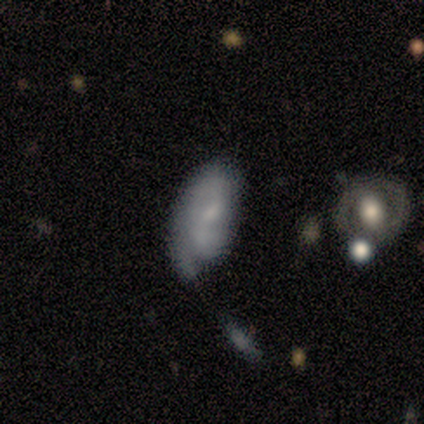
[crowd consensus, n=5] Overall: smooth (80%). How rounded: in between (50%; round 25%). Merging: major disturbance (60%; minor disturbance 20%).